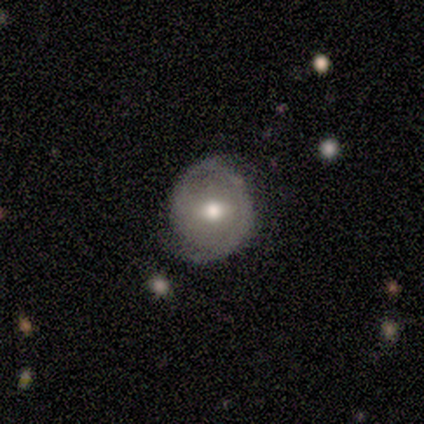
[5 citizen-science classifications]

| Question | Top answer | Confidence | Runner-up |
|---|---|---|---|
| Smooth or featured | featured or disk | 80% | smooth (20%) |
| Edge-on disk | no | 100% | — |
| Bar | weak | 50% | tied: no (50%) |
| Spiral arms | yes | 75% | no (25%) |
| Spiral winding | tight | 67% | medium (33%) |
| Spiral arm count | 2 | 67% | can't tell (33%) |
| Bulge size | moderate | 75% | large (25%) |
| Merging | none | 80% | minor disturbance (20%) |